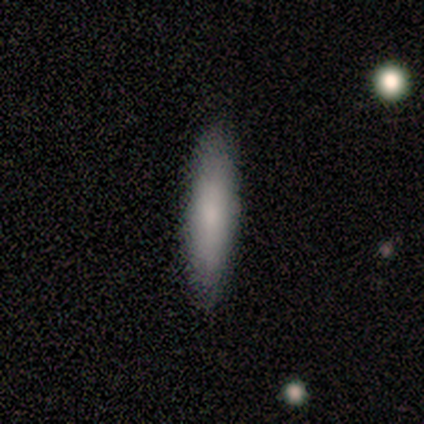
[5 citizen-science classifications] smooth_or_featured: smooth (p=0.80) [alt: featured or disk p=0.20]
how_rounded: cigar-shaped (p=0.75) [alt: in between p=0.25]
merging: none (p=1.00)